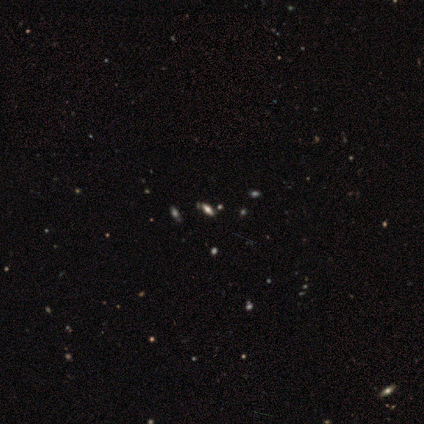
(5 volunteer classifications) Overall: smooth (40%, tied with star or artifact). How rounded: in between (100%). Merging: none (67%; minor disturbance 33%).